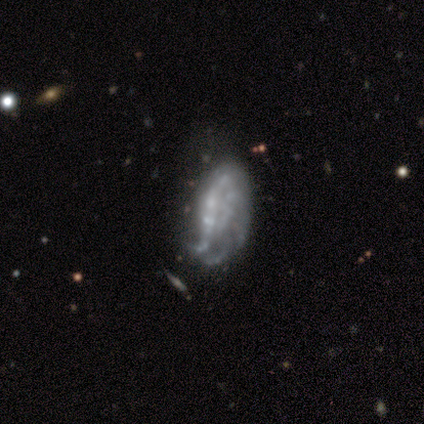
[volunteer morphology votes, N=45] A featured or disk galaxy (71%) with no bar (84%), no spiral arms (52%) and no central bulge (61%).

Vote fractions:
- Smooth or featured? featured or disk: 71% / smooth: 22% / star or artifact: 7%
- Edge-on disk? no: 97% / yes: 3%
- Bar? no: 84% / weak: 10% / strong: 6%
- Spiral arms? no: 52% / yes: 48%
- Bulge size? none: 61% / small: 35% / moderate: 3% / dominant: 0% / large: 0%
- Merging? none: 43% / minor disturbance: 31% / major disturbance: 19% / merger: 7%